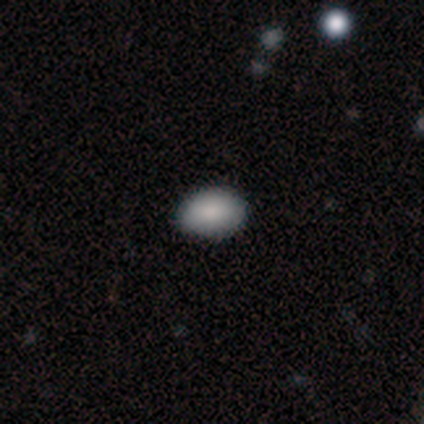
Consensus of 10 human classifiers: This appears to be a smooth galaxy with no disk features (100%) that is in between round and cigar-shaped (90%). Merging: none (90%).